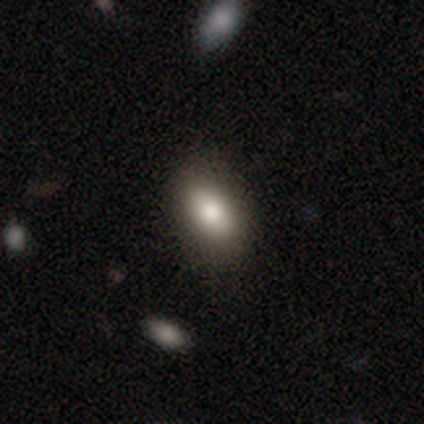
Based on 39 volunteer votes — Overall: smooth (90%). How rounded: in between (89%). Merging: none (80%).